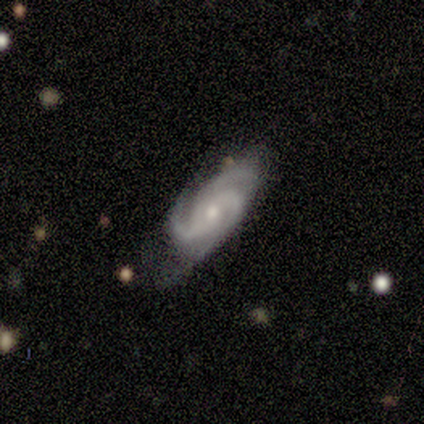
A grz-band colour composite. It shows a featured or disk galaxy (100%) with no bar (88%), 3 (100%) tight (50%, tied with medium) spiral arms (100%) and a moderate central bulge (62%). Merging: minor disturbance (50%).